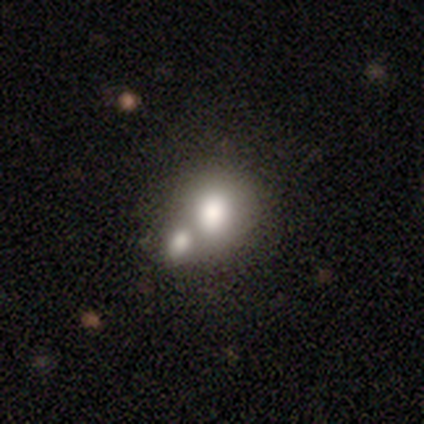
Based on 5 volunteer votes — Volunteers were most divided on "how rounded": round: 60%, in between: 40%, cigar-shaped: 0%. More confident: smooth or featured — smooth (100%); merging — merger (60%).